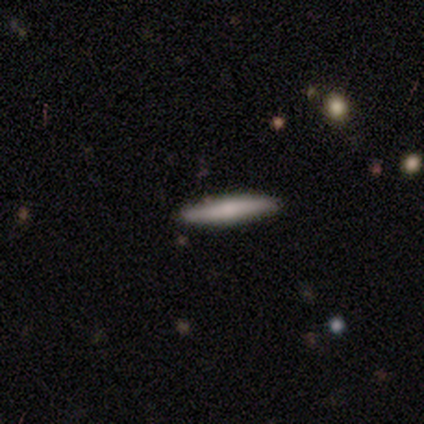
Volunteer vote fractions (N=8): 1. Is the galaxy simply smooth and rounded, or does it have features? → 75% smooth, 25% featured or disk, 0% star or artifact.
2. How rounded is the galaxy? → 100% cigar-shaped, 0% round, 0% in between.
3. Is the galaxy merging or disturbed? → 88% none, 12% minor disturbance, 0% major disturbance, 0% merger.